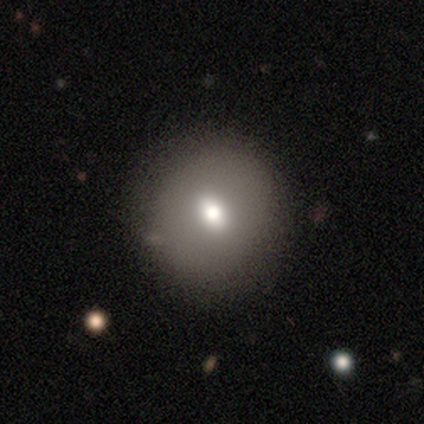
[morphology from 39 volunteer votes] smooth-or-featured: smooth: 74% | featured or disk: 13% | star or artifact: 13%
  how-rounded: round: 90% | in between: 10% | cigar-shaped: 0%
  merging: none: 85% | minor disturbance: 9% | major disturbance: 6% | merger: 0%